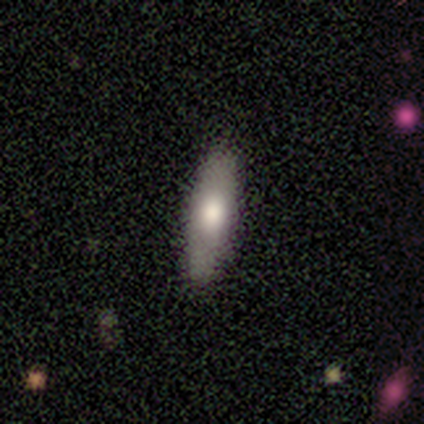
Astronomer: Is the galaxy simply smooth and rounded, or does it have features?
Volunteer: smooth — 73%.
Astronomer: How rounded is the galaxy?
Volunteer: cigar-shaped — 71%.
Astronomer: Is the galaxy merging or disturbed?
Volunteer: none — 86%.